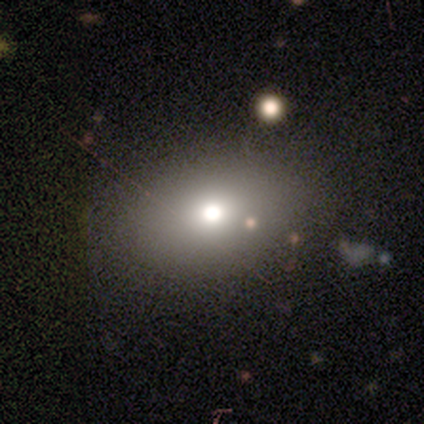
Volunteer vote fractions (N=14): Q: Smooth or featured?
A: smooth (79%); runner-up: star or artifact (21%)
Q: How rounded?
A: round (55%); runner-up: in between (45%)
Q: Merging?
A: none (82%); runner-up: minor disturbance (9%)